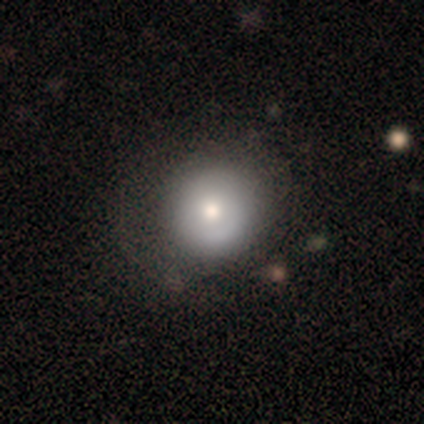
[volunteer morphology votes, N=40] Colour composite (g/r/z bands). It shows a smooth galaxy with no disk features (72%) that is round (100%). Merging: none (62%).